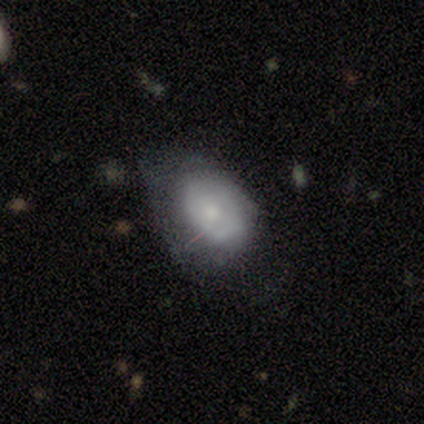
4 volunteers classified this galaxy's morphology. A featured or disk galaxy (75%) with no bar (67%), no spiral arms (67%) and a moderate central bulge (33%, tied with small and none). Merging: none (50%, tied with minor disturbance).